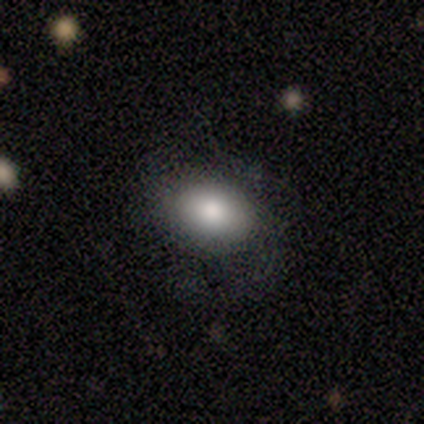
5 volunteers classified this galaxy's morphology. A smooth galaxy with no disk features (60%) that is in between round and cigar-shaped (100%).

Vote fractions:
- Smooth or featured? smooth: 60% / featured or disk: 40% / star or artifact: 0%
- How rounded? in between: 100% / round: 0% / cigar-shaped: 0%
- Merging? minor disturbance: 60% / none: 40% / major disturbance: 0% / merger: 0%